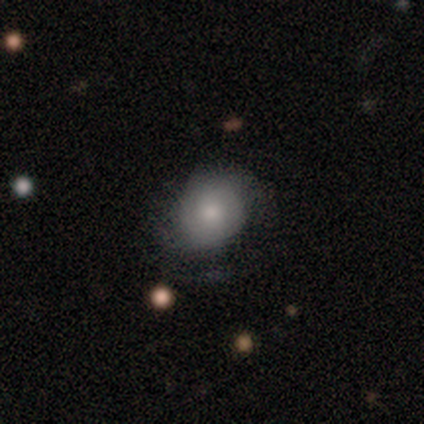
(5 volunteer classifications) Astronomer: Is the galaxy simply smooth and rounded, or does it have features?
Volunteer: smooth — 60% (runner-up: featured or disk, 40%).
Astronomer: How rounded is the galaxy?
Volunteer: in between — 67%.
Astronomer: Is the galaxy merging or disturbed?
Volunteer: none — 40%, tied with minor disturbance at 40%.